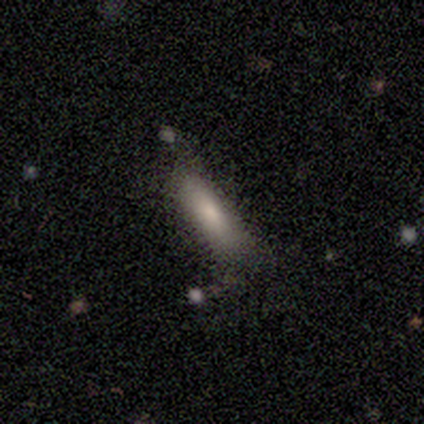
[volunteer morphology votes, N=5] type=smooth (60%); roundness=cigar-shaped (67%); merging=none (60%).